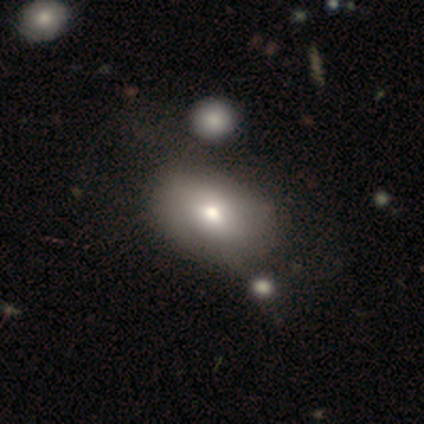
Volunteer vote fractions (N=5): smooth_or_featured: featured or disk (p=0.60) [alt: smooth p=0.40]
disk_edge_on: no (p=0.67) [alt: yes p=0.33]
bar: weak (p=0.50) [tied with: no p=0.50]
has_spiral_arms: no (p=1.00)
bulge_size: large (p=0.50) [tied with: moderate p=0.50]
merging: none (p=0.80) [alt: minor disturbance p=0.20]